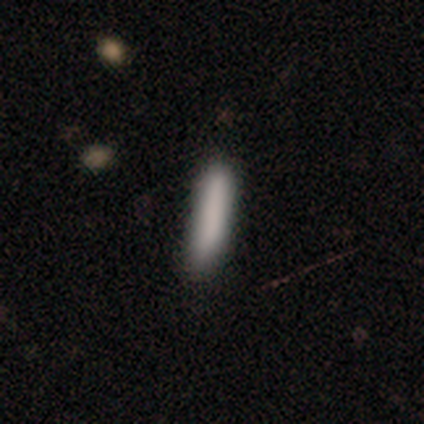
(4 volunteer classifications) Q: Smooth or featured?
A: smooth (100%)
Q: How rounded?
A: cigar-shaped (100%)
Q: Merging?
A: none (100%)